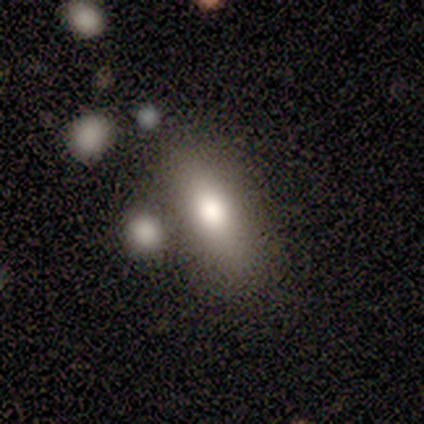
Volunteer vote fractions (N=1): This is clearly a smooth galaxy (100%). How rounded: clearly in between (100%). Merging: clearly none (100%).